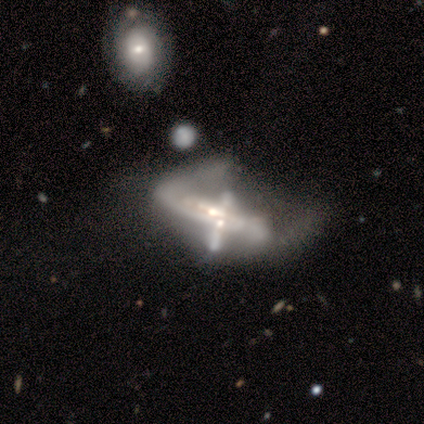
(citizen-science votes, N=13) A featured or disk galaxy (85%) with no bar (56%), 1 (40%, tied with 2) tight (60%) spiral arms (56%) and a moderate central bulge (56%). Merging: major disturbance (50%).